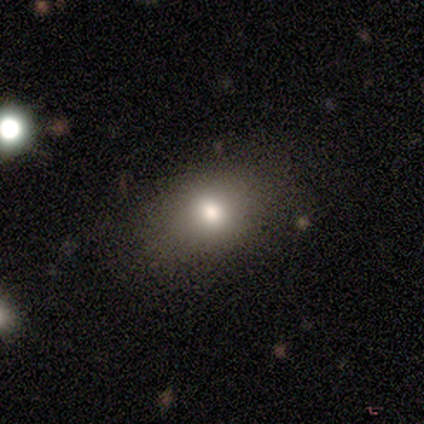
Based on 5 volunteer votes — This is clearly a smooth galaxy (80%). How rounded: possibly round (50%, tied with in between). Merging: likely none (75%).